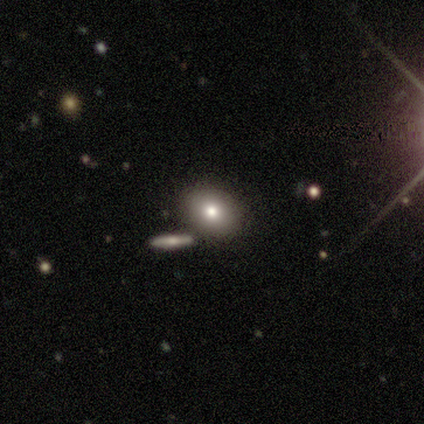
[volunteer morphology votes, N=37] Smooth or featured? 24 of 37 (65%) said smooth. How rounded? 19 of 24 (79%) said in between. Merging? 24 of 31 (77%) said none.